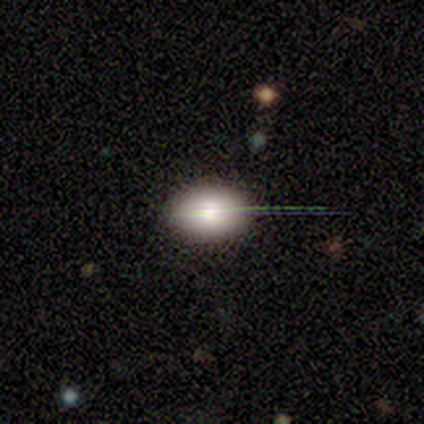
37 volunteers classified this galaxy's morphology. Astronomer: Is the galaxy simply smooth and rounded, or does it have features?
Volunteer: smooth — 70%.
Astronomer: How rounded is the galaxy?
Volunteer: in between — 69%.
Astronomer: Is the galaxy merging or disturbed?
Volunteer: none — 90%.